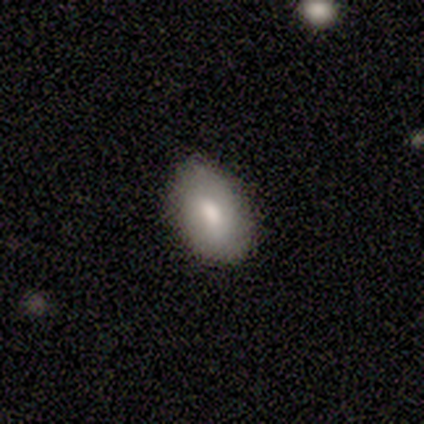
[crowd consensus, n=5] smooth_or_featured: smooth (p=1.00)
how_rounded: in between (p=1.00)
merging: none (p=0.60) [alt: minor disturbance p=0.40]